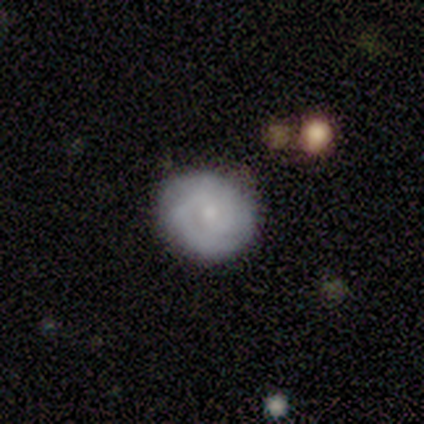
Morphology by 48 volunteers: A smooth galaxy with no disk features (50%) that is round (83%).

Vote fractions:
- Smooth or featured? smooth: 50% / featured or disk: 46% / star or artifact: 4%
- How rounded? round: 83% / in between: 17% / cigar-shaped: 0%
- Merging? none: 83% / minor disturbance: 13% / major disturbance: 4% / merger: 0%